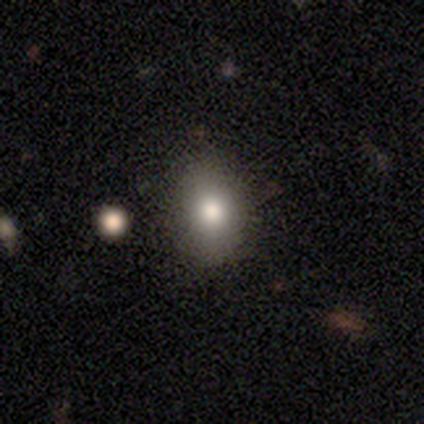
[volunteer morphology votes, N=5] A featured or disk galaxy (60%) with no bar (100%), no spiral arms (100%) and a large central bulge (67%).

Vote fractions:
- Smooth or featured? featured or disk: 60% / smooth: 40% / star or artifact: 0%
- Edge-on disk? no: 100% / yes: 0%
- Bar? no: 100% / strong: 0% / weak: 0%
- Spiral arms? no: 100% / yes: 0%
- Bulge size? large: 67% / moderate: 33% / dominant: 0% / small: 0% / none: 0%
- Merging? none: 60% / minor disturbance: 40% / major disturbance: 0% / merger: 0%